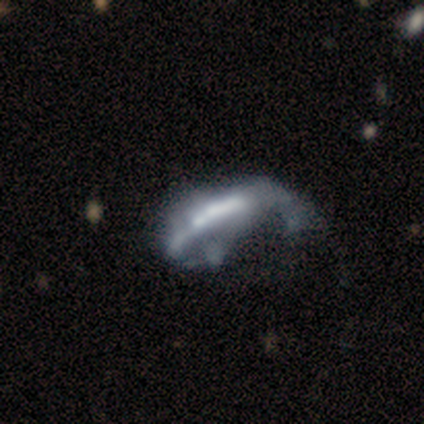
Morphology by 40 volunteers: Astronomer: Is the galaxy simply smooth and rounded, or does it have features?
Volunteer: featured or disk — 62%.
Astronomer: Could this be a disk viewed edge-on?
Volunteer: no — 80%.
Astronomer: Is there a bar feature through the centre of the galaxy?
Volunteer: strong — 60%.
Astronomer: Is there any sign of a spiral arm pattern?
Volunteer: no — 65%.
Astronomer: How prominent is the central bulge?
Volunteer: none — 35% (runner-up: moderate, 25%).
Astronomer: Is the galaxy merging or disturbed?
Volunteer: major disturbance — 56%.